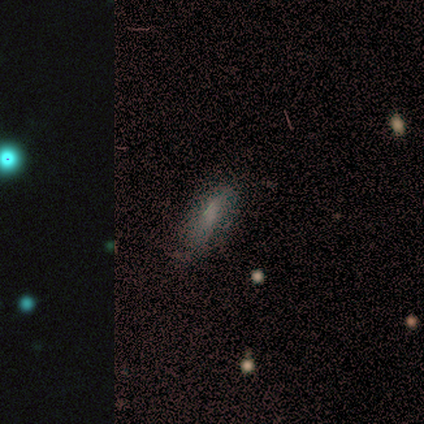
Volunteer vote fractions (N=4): smooth 75%, star or artifact 25%, featured or disk 0%. Down the decision tree: how rounded — in between (67%); merging — none (67%).